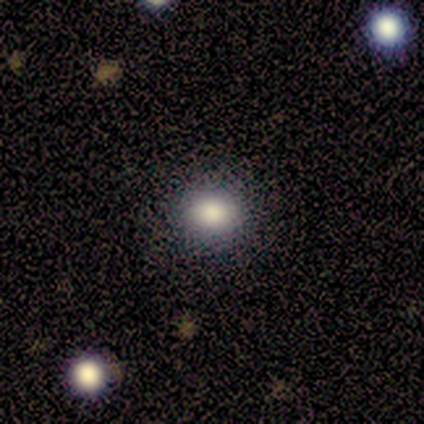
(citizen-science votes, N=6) This is clearly a smooth galaxy (100%). How rounded: clearly round (100%). Merging: clearly none (83%).